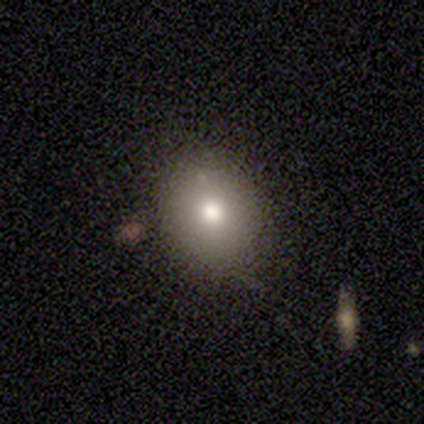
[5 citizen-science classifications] A smooth galaxy with no disk features (100%) that is in between round and cigar-shaped (60%).

Vote fractions:
- Smooth or featured? smooth: 100% / featured or disk: 0% / star or artifact: 0%
- How rounded? in between: 60% / round: 40% / cigar-shaped: 0%
- Merging? none: 100% / minor disturbance: 0% / major disturbance: 0% / merger: 0%